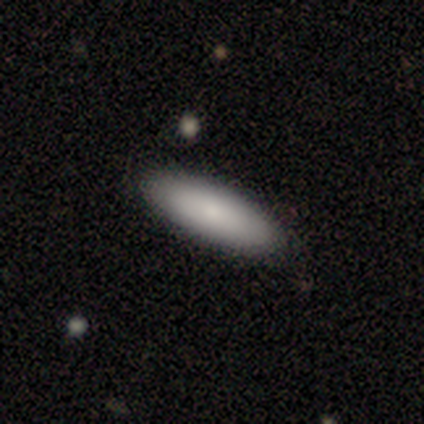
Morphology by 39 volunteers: smooth 79%, featured or disk 15%, star or artifact 5%. Down the decision tree: how rounded — in between (65%); merging — none (46%).